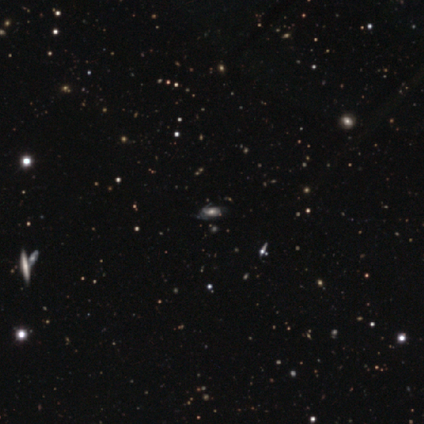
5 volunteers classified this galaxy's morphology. Smooth or featured? featured or disk (60%)
Edge-on disk? no (67%)
Bar? weak (50%, tied with no)
Spiral arms? yes (100%)
Spiral winding? tight (50%, tied with medium)
Spiral arm count? 2 (50%, tied with can't tell)
Bulge size? large (50%, tied with moderate)
Merging? none (100%)